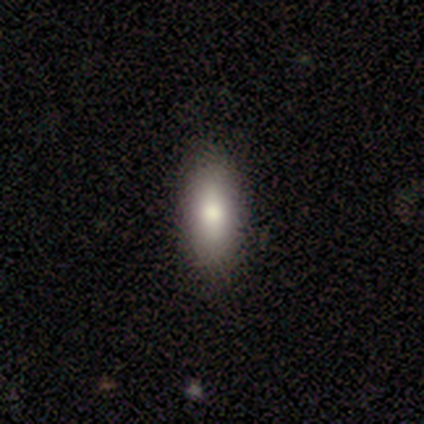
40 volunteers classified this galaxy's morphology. Smooth or featured?
  - smooth: 82% *
  - featured or disk: 10%
  - star or artifact: 8%
How rounded?
  - in between: 76% *
  - cigar-shaped: 24%
  - round: 0%
Merging?
  - none: 84% *
  - minor disturbance: 11%
  - major disturbance: 5%
  - merger: 0%